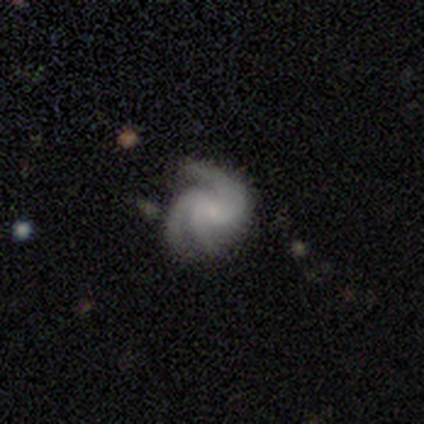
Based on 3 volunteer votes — featured or disk 100%, smooth 0%, star or artifact 0%. Down the decision tree: edge-on disk — no (100%); bar — no (67%); spiral arms — yes (100%); spiral arm count — 3 (67%); spiral winding — loose (67%); bulge size — none (100%); merging — none (67%).